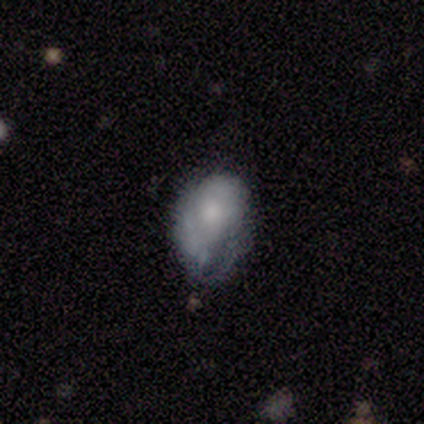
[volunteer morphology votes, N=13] Smooth or featured? smooth (54%)
How rounded? in between (100%)
Merging? none (50%)